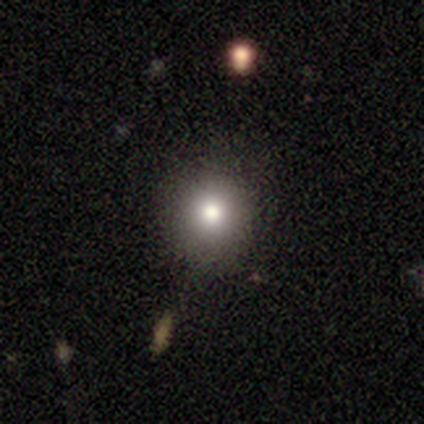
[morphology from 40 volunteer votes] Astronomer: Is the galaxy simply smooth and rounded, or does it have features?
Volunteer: smooth — 90%.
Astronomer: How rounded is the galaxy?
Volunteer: round — 94%.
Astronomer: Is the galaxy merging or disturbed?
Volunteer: none — 81%.